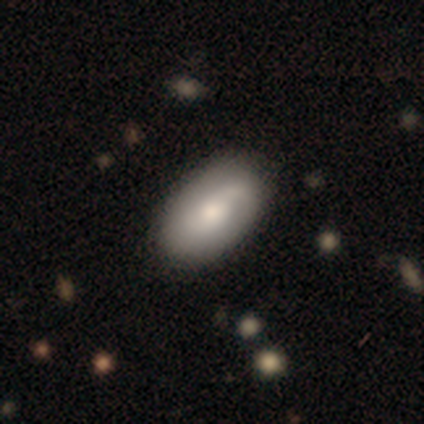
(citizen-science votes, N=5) A smooth galaxy with no disk features (80%) that is in between round and cigar-shaped (100%).

Vote fractions:
- Smooth or featured? smooth: 80% / featured or disk: 20% / star or artifact: 0%
- How rounded? in between: 100% / round: 0% / cigar-shaped: 0%
- Merging? none: 100% / minor disturbance: 0% / major disturbance: 0% / merger: 0%